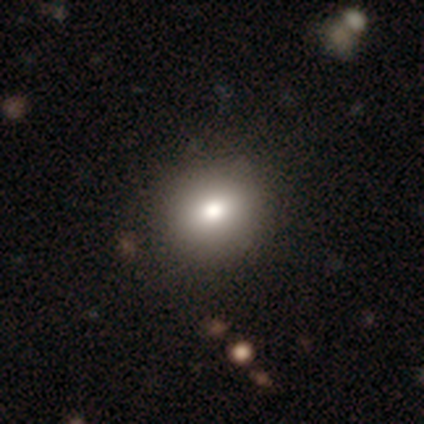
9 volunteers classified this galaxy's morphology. Smooth or featured? 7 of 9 (78%) said smooth. How rounded? 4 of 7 (57%) said round. Merging? 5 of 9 (56%) said none.